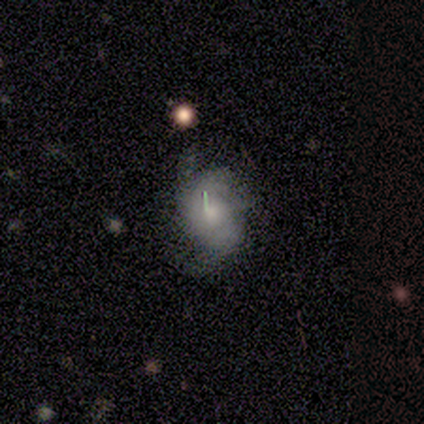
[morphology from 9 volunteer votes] Smooth or featured: featured or disk — 78% (smooth — 22%)
Edge-on disk: no — 86% (yes — 14%)
Bar: no — 100%
Spiral arms: yes — 50% (tied with no — 50%)
Spiral winding: medium — 67% (loose — 33%)
Spiral arm count: 2 — 33% (tied with 3 — 33%; 4 — 33%)
Bulge size: large — 33% (tied with none — 33%)
Merging: none — 33% (tied with minor disturbance — 33%; major disturbance — 33%)